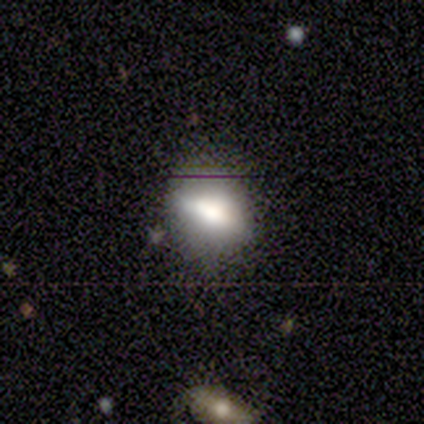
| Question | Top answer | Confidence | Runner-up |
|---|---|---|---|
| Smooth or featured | smooth | 80% | featured or disk (20%) |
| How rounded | round | 50% | tied: in between (50%) |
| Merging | none | 80% | minor disturbance (20%) |